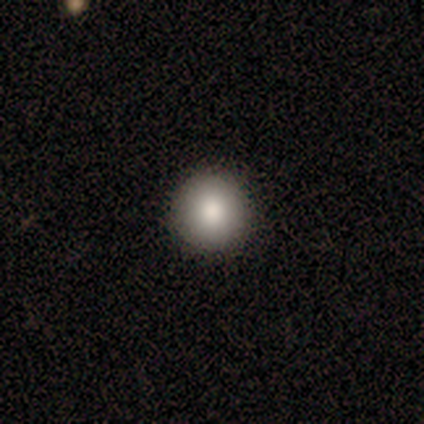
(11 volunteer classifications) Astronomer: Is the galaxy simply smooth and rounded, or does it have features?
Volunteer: smooth — 73%.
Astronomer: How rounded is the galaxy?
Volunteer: round — 100%.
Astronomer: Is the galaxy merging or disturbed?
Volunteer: none — 100%.